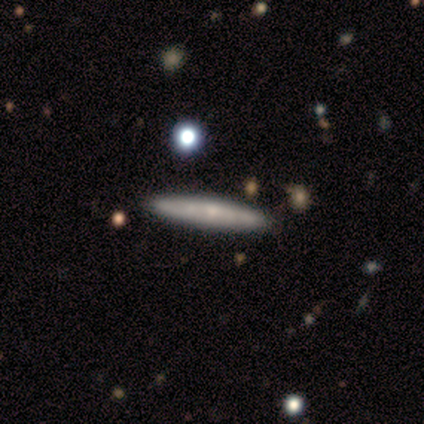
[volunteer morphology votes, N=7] Smooth or featured? 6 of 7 (86%) said featured or disk. Edge-on disk? 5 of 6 (83%) said yes. Edge-on bulge? 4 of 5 (80%) said rounded. Merging? 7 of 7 (100%) said none.